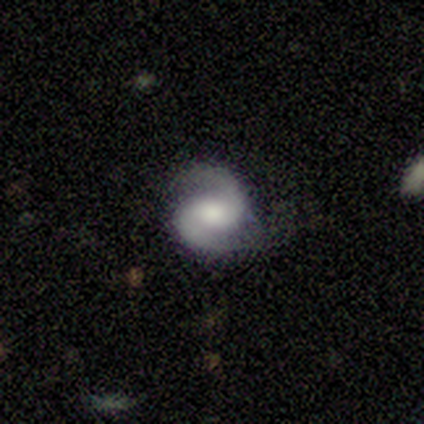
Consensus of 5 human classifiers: Smooth or featured?
  - featured or disk: 100% *
  - smooth: 0%
  - star or artifact: 0%
Edge-on disk?
  - no: 100% *
  - yes: 0%
Bar?
  - weak: 40% * (tied)
  - no: 40% * (tied)
  - strong: 20%
Spiral arms?
  - yes: 100% *
  - no: 0%
Spiral winding?
  - medium: 80% *
  - tight: 20%
  - loose: 0%
Spiral arm count?
  - 2: 80% *
  - 3: 20%
  - 1: 0%
  - 4: 0%
  - more than 4: 0%
  - can't tell: 0%
Bulge size?
  - large: 40% * (tied)
  - moderate: 40% * (tied)
  - none: 20%
  - dominant: 0%
  - small: 0%
Merging?
  - none: 40% * (tied)
  - minor disturbance: 40% * (tied)
  - major disturbance: 20%
  - merger: 0%